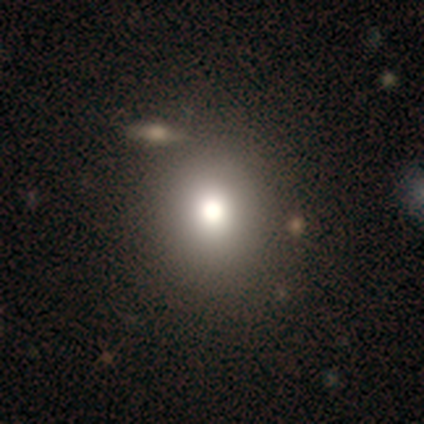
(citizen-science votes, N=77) Morphology: type=smooth (82%); roundness=round (75%); merging=none (54%).